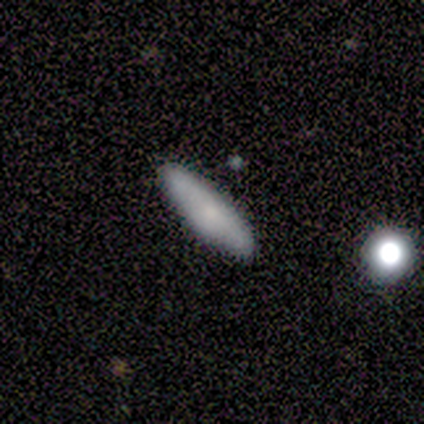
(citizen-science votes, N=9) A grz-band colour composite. It shows a smooth galaxy with no disk features (78%) that is cigar-shaped (57%). Merging: none (100%).